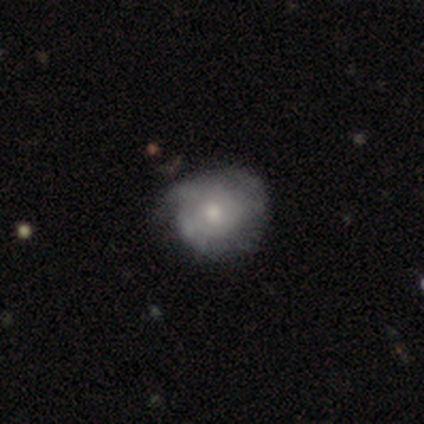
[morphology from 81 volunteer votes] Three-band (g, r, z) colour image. It shows a featured or disk galaxy (47%) with no bar (92%), tight (63%) spiral arms (50%, tied with no) and a moderate central bulge (47%, tied with small). Merging: none (58%).